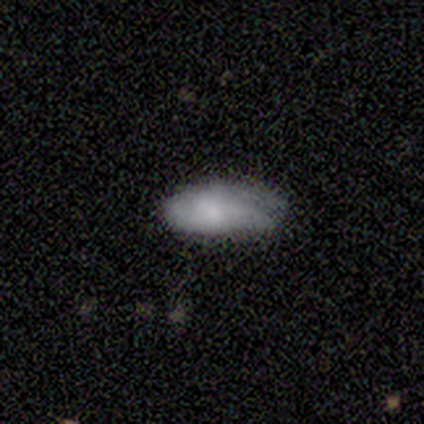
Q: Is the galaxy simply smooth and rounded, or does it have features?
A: smooth — 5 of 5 (100%).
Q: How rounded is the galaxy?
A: in between — 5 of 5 (100%).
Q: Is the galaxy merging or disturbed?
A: none — 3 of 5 (60%).